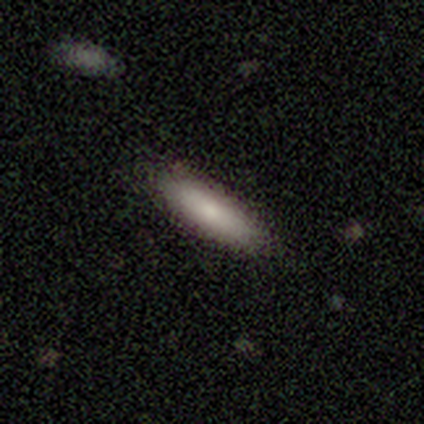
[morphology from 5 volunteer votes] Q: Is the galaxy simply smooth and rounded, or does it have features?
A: smooth — 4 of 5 (80%).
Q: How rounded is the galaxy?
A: in between — 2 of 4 (50%, tied with cigar-shaped).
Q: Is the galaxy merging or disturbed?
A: none — 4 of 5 (80%).